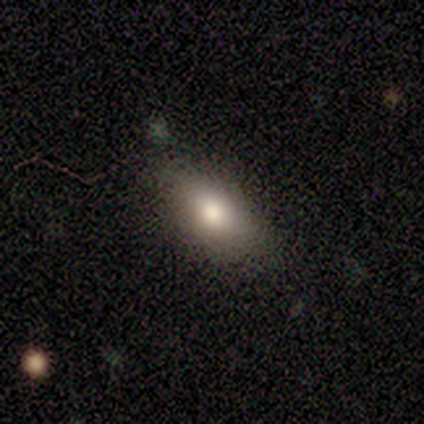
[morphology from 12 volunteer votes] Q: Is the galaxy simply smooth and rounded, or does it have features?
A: smooth — 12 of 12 (100%).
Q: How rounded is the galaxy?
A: in between — 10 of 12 (83%).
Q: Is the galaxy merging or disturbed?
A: none — 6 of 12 (50%).